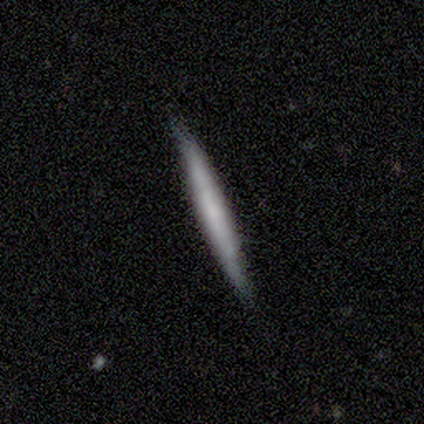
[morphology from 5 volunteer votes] Smooth or featured: smooth — 80% (featured or disk — 20%)
How rounded: cigar-shaped — 100%
Merging: none — 100%